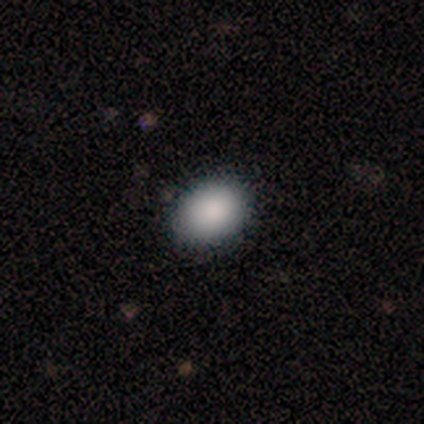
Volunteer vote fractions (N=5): smooth 100%, featured or disk 0%, star or artifact 0%. Down the decision tree: how rounded — in between (80%); merging — none (80%).